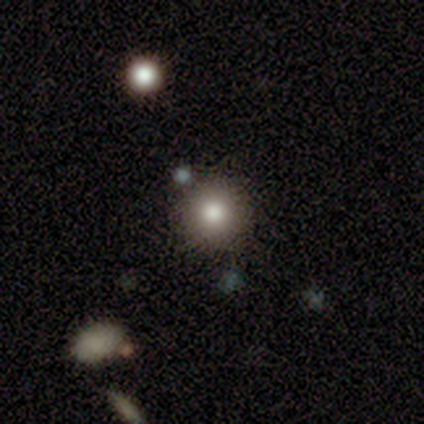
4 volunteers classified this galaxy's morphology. This is clearly a smooth galaxy (100%). How rounded: likely round (75%). Merging: likely none (75%).